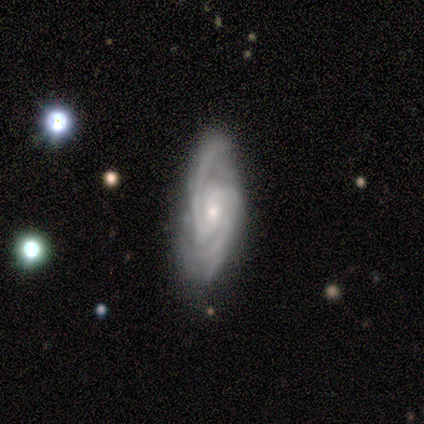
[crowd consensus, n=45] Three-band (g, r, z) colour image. It shows a featured or disk galaxy (98%) with no bar (51%), 2 (60%) medium (50%) spiral arms (98%) and a small central bulge (60%). Merging: none (75%).